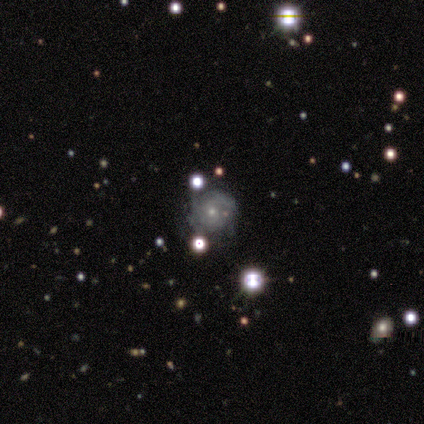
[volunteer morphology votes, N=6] Overall: featured or disk (67%). Edge-on disk: no (100%). Bar: weak (50%; strong 25%). Spiral arms: yes (100%). Spiral arm count: 2 (50%, tied with can't tell). Spiral winding: medium (50%; tight 25%). Bulge size: small (75%). Merging: none (100%).